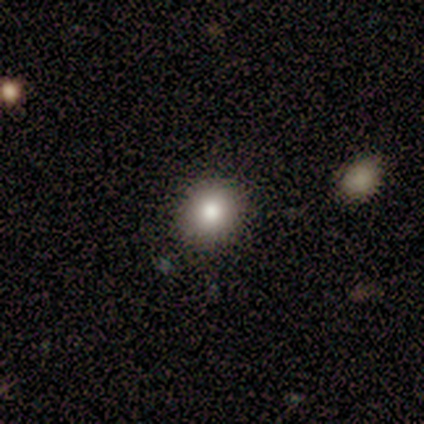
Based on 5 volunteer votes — A smooth galaxy with no disk features (80%) that is round (50%, tied with in between). Merging: none (60%).